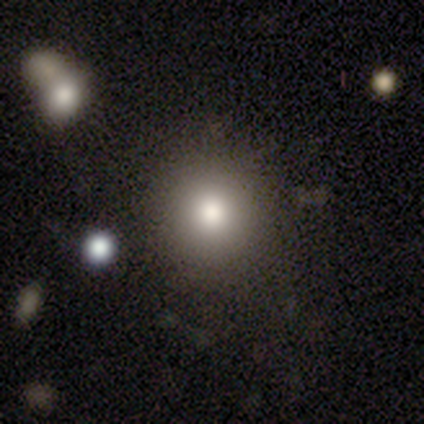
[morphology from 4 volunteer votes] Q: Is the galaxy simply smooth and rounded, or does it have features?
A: smooth — 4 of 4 (100%).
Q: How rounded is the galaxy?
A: round — 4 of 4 (100%).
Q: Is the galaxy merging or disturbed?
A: none — 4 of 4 (100%).